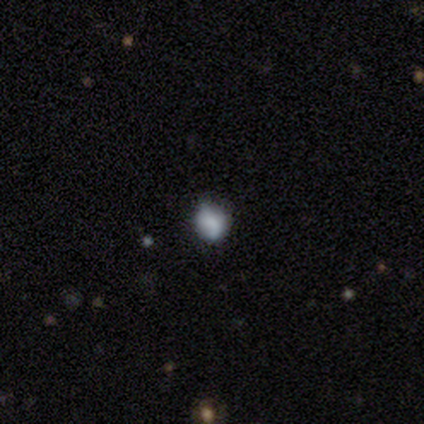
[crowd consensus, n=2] Smooth or featured?
  - smooth: 50% * (tied)
  - star or artifact: 50% * (tied)
  - featured or disk: 0%
How rounded?
  - cigar-shaped: 100% *
  - round: 0%
  - in between: 0%
Merging?
  - none: 100% *
  - minor disturbance: 0%
  - major disturbance: 0%
  - merger: 0%